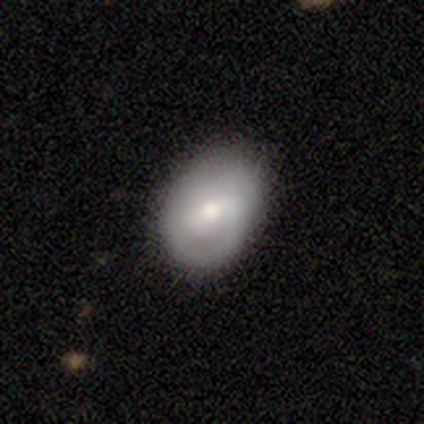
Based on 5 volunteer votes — Smooth or featured? smooth (40%, tied with featured or disk)
How rounded? in between (100%)
Merging? none (75%)